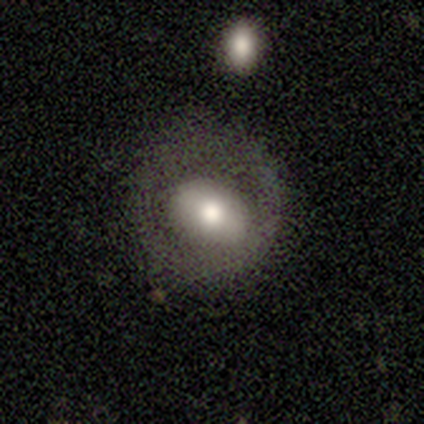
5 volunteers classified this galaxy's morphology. type=featured or disk (80%); edge-on=no (100%); bar=no (75%); spiral arms=no (100%); bulge=large (75%); merging=none (60%).